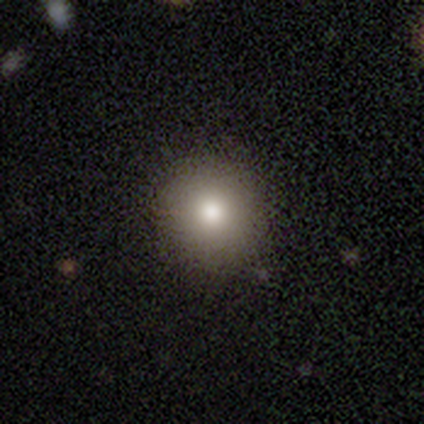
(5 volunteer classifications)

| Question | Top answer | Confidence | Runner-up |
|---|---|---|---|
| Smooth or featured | smooth | 80% | featured or disk (20%) |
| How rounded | round | 100% | — |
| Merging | none | 100% | — |